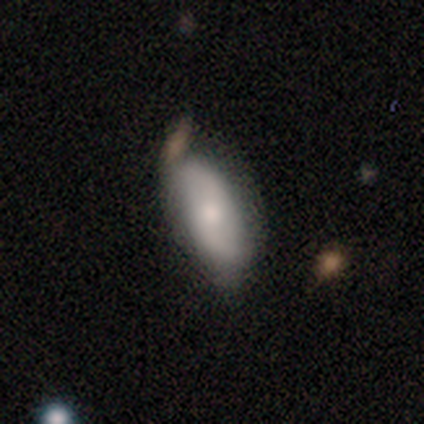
smooth 59%, featured or disk 39%, star or artifact 2%. Down the decision tree: how rounded — in between (75%); merging — none (55%).